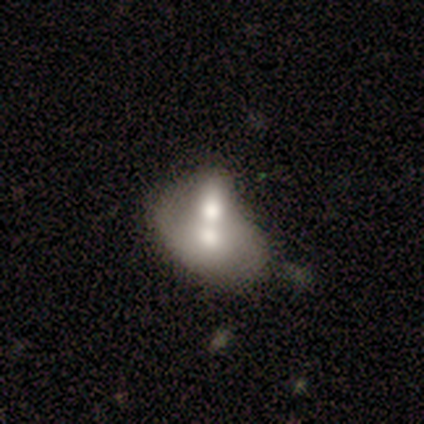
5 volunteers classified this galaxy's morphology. smooth_or_featured: smooth (p=0.60) [alt: featured or disk p=0.40]
how_rounded: in between (p=1.00)
merging: merger (p=0.80) [alt: minor disturbance p=0.20]